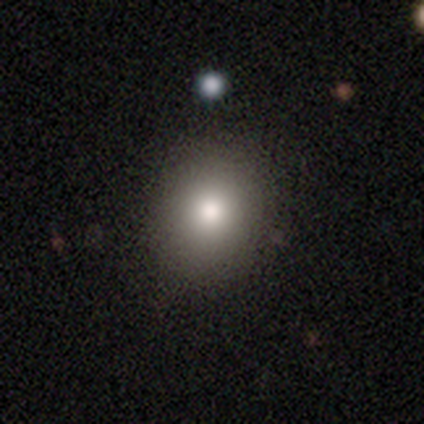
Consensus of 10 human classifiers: Smooth or featured? 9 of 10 (90%) said smooth. How rounded? 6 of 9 (67%) said round. Merging? 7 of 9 (78%) said none.